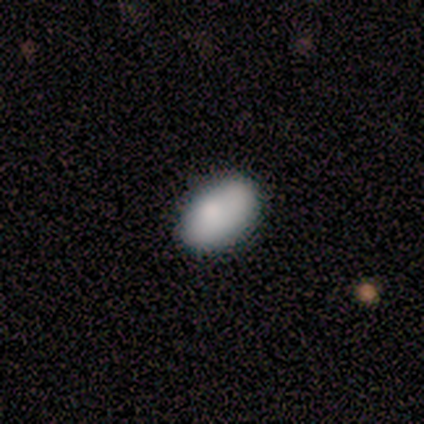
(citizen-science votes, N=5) smooth 80%, featured or disk 20%, star or artifact 0%. Down the decision tree: how rounded — in between (75%); merging — none (80%).